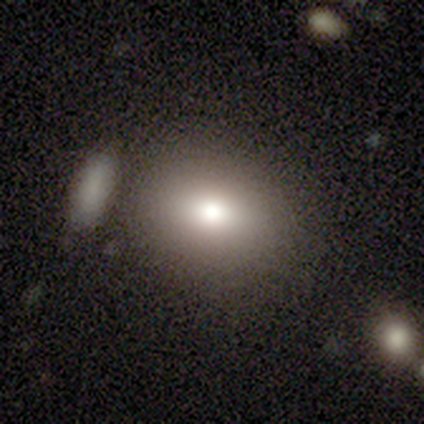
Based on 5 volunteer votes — Q: Smooth or featured?
A: smooth (80%); runner-up: star or artifact (20%)
Q: How rounded?
A: round (50%); tied with: in between (50%)
Q: Merging?
A: none (100%)